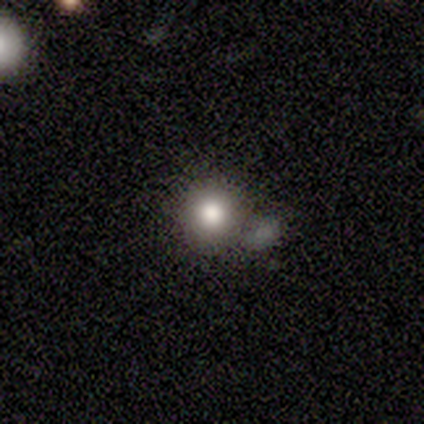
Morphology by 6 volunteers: A smooth galaxy with no disk features (67%) that is round (100%). Merging: none (80%).